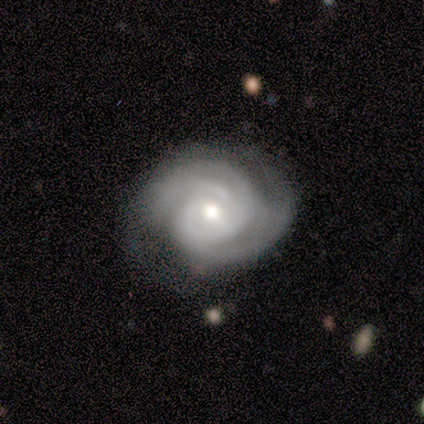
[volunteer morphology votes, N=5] Smooth or featured? featured or disk (100%)
Edge-on disk? no (100%)
Bar? no (60%)
Spiral arms? yes (100%)
Spiral winding? tight (60%)
Spiral arm count? 3 (40%)
Bulge size? moderate (60%)
Merging? none (100%)